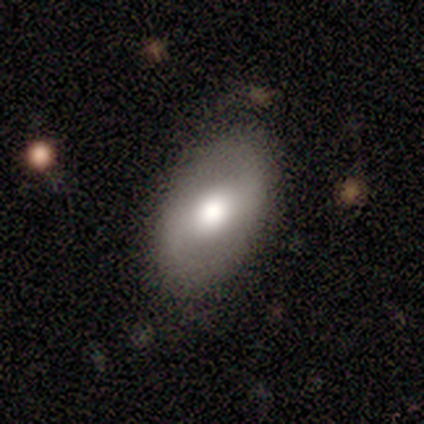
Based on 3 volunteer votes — smooth-or-featured: featured or disk: 100% | smooth: 0% | star or artifact: 0%
  disk-edge-on: no: 100% | yes: 0%
    bar: strong: 33% (tied) | weak: 33% (tied) | no: 33% (tied)
    has-spiral-arms: no: 100% | yes: 0%
    bulge-size: moderate: 100% | dominant: 0% | large: 0% | small: 0% | none: 0%
  merging: none: 100% | minor disturbance: 0% | major disturbance: 0% | merger: 0%